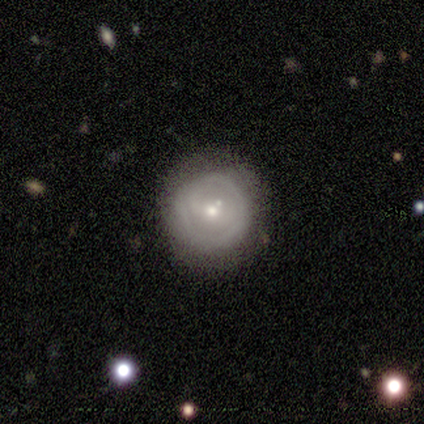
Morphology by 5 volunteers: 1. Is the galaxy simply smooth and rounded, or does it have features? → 40% smooth (tied), 40% featured or disk (tied), 20% star or artifact.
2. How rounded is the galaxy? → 100% round, 0% in between, 0% cigar-shaped.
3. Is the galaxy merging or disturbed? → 100% none, 0% minor disturbance, 0% major disturbance, 0% merger.